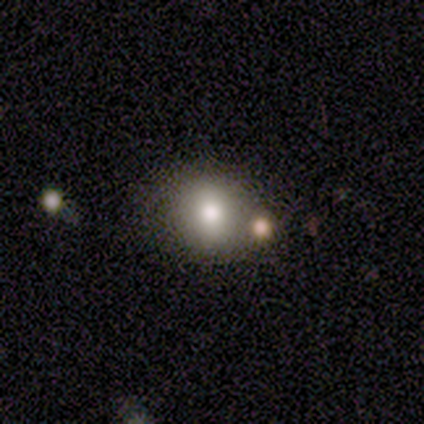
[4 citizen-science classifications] smooth-or-featured: smooth: 75% | featured or disk: 25% | star or artifact: 0%
  how-rounded: round: 100% | in between: 0% | cigar-shaped: 0%
  merging: none: 100% | minor disturbance: 0% | major disturbance: 0% | merger: 0%